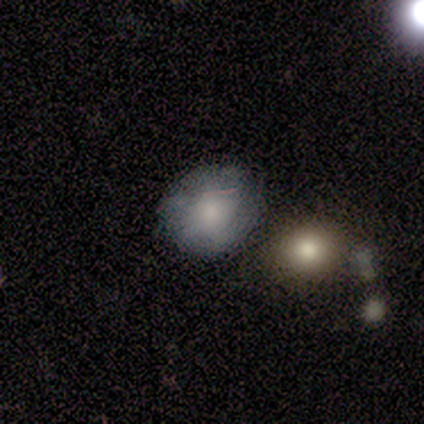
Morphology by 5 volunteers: type=smooth (60%); roundness=in between (67%); merging=none (50%, tied with minor disturbance).